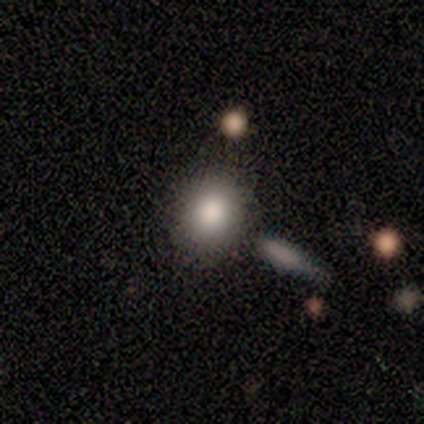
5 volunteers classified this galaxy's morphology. Smooth or featured? smooth (80%)
How rounded? round (75%)
Merging? none (60%)